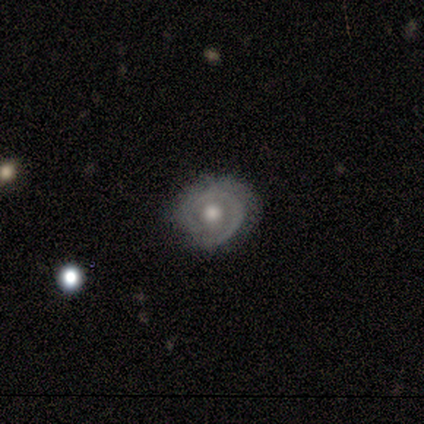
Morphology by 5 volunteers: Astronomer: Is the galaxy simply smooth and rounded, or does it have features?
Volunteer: featured or disk — 80%.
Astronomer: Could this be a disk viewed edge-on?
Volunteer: no — 100%.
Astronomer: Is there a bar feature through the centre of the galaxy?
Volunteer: no — 100%.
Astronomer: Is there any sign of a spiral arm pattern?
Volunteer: yes — 50%, tied with no at 50%.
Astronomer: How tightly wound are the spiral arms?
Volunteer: tight — 50%, tied with medium at 50%.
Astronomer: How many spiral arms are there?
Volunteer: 1 — 100%.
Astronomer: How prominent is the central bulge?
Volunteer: large — 50%, tied with moderate at 50%.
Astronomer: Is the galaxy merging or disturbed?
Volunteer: none — 80%.